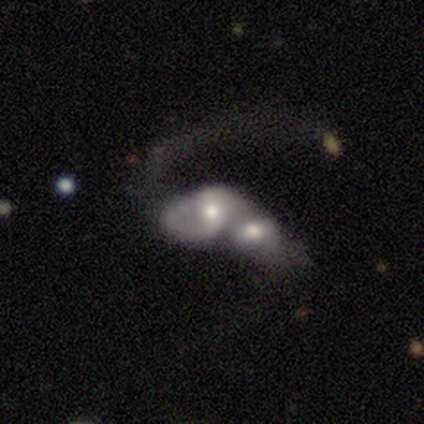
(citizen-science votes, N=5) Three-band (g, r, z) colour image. It shows a featured or disk galaxy (60%) with a strong bar (33%, tied with weak and no), 2 (67%) medium (67%) spiral arms (100%) and a moderate central bulge (67%). Merging: merger (100%).